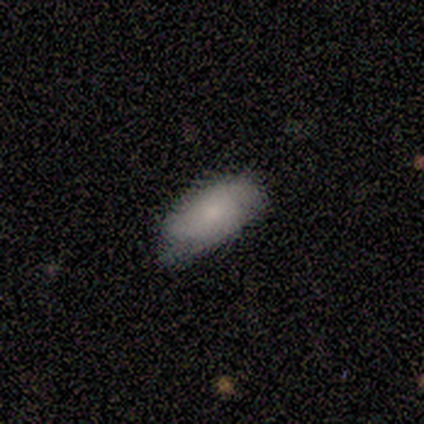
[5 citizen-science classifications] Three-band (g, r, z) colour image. It shows a smooth galaxy with no disk features (80%) that is in between round and cigar-shaped (75%). Merging: none (75%).